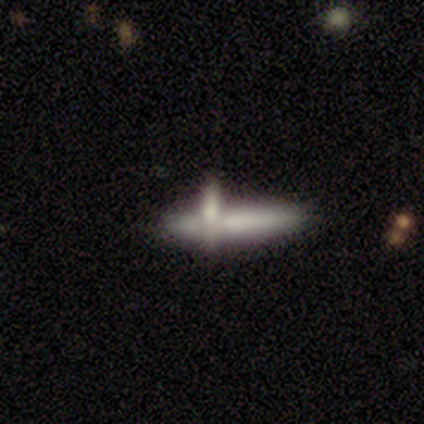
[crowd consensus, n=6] Morphology: type=smooth (50%, tied with featured or disk); roundness=cigar-shaped (67%); merging=none (33%, tied with merger).